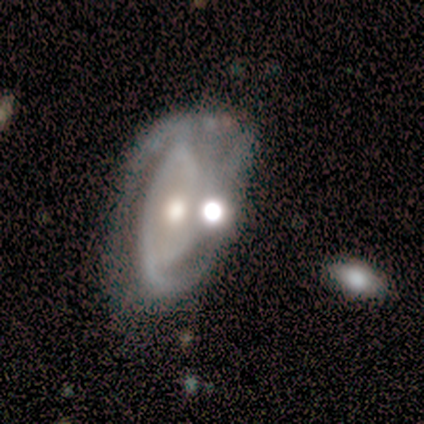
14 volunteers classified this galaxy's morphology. smooth-or-featured: featured or disk: 93% | smooth: 7% | star or artifact: 0%
  disk-edge-on: no: 100% | yes: 0%
    bar: no: 69% | strong: 23% | weak: 8%
    has-spiral-arms: yes: 69% | no: 31%
      spiral-winding: tight: 56% | medium: 44% | loose: 0%
      spiral-arm-count: 2: 44% | 3: 33% | can't tell: 22% | 1: 0% | 4: 0% | more than 4: 0%
    bulge-size: moderate: 54% | large: 23% | small: 15% | dominant: 8% | none: 0%
  merging: none: 29% (tied) | minor disturbance: 29% (tied) | major disturbance: 21% | merger: 21%